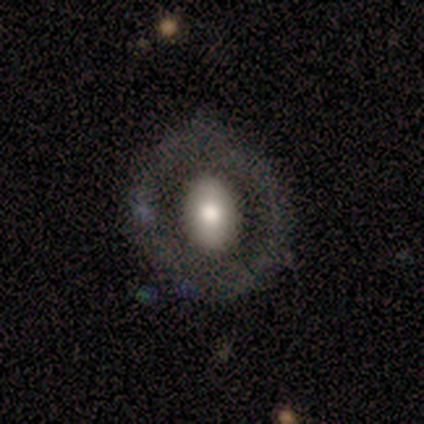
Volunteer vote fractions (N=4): Smooth or featured: featured or disk — 50% (smooth — 25%)
Edge-on disk: no — 100%
Bar: no — 100%
Spiral arms: no — 100%
Bulge size: large — 50% (tied with moderate — 50%)
Merging: none — 67% (major disturbance — 33%)